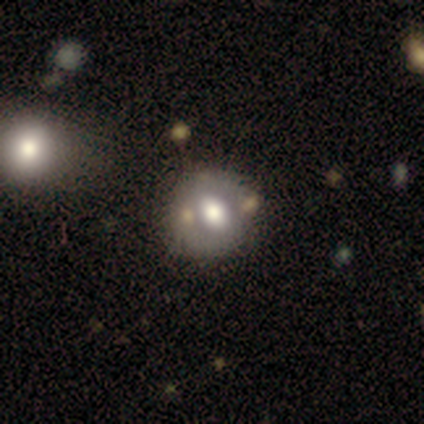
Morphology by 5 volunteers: smooth_or_featured: featured or disk (p=0.40) [tied with: star or artifact p=0.40]
disk_edge_on: no (p=1.00)
bar: strong (p=1.00)
has_spiral_arms: no (p=1.00)
bulge_size: dominant (p=0.50) [tied with: moderate p=0.50]
merging: none (p=1.00)